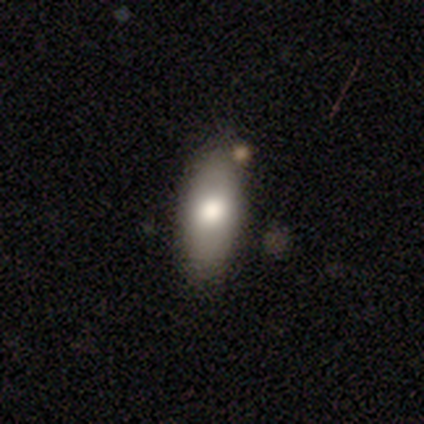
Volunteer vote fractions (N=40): Smooth or featured?
  - smooth: 75% *
  - star or artifact: 15%
  - featured or disk: 10%
How rounded?
  - in between: 93% *
  - round: 3%
  - cigar-shaped: 3%
Merging?
  - none: 85% *
  - minor disturbance: 12%
  - major disturbance: 3%
  - merger: 0%